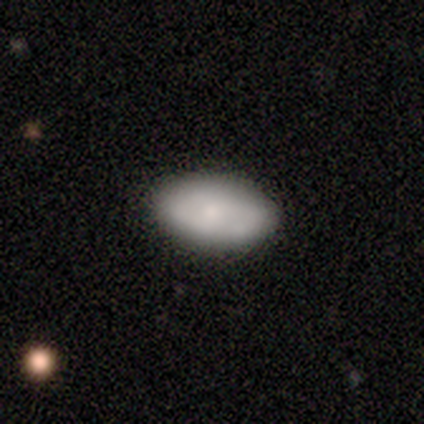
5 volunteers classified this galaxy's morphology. Smooth or featured: smooth — 100%
How rounded: in between — 100%
Merging: none — 100%